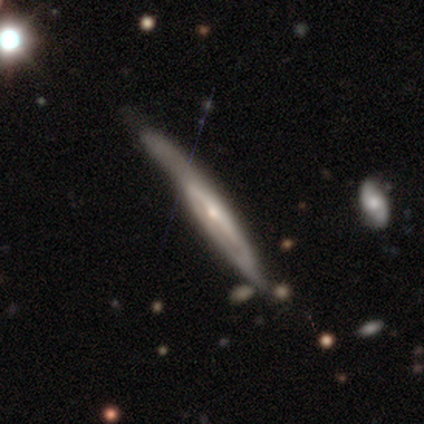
Smooth or featured? 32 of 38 (84%) said featured or disk. Edge-on disk? 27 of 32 (84%) said yes. Edge-on bulge? 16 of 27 (59%) said rounded. Merging? 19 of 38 (50%) said none.